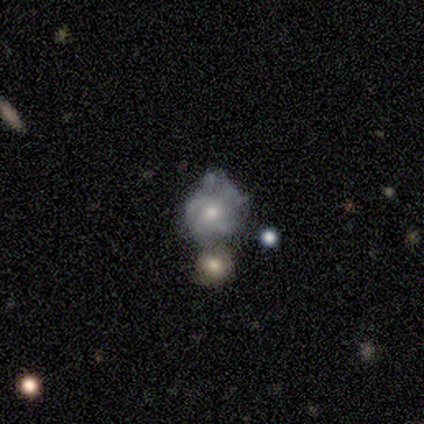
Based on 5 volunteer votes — Volunteers were most divided on "merging" (2-way tie): minor disturbance: 40%, merger: 40%, major disturbance: 20%, none: 0%. More confident: edge-on disk — no (100%); bulge size — moderate (100%); bar — no (67%); spiral arms — no (67%); smooth or featured — featured or disk (60%).